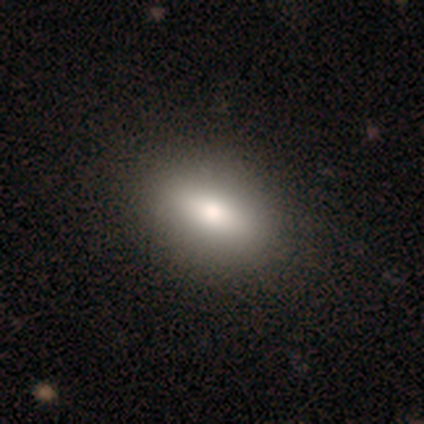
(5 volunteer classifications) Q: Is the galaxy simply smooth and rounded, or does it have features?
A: smooth — 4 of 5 (80%).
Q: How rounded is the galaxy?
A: in between — 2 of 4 (50%).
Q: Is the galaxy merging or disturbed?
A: none — 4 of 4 (100%).